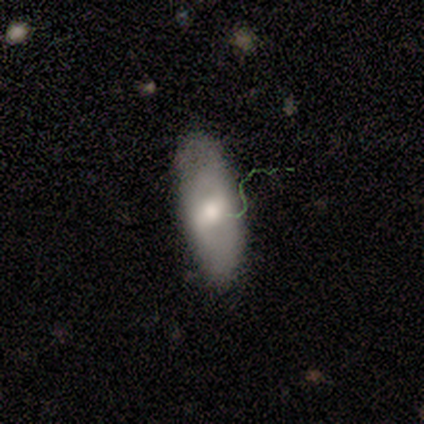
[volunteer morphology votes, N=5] A featured or disk galaxy (80%) with a strong bar (67%), 2 (50%, tied with can't tell) tight (50%, tied with medium) spiral arms (67%) and a moderate central bulge (67%). Merging: none (60%).